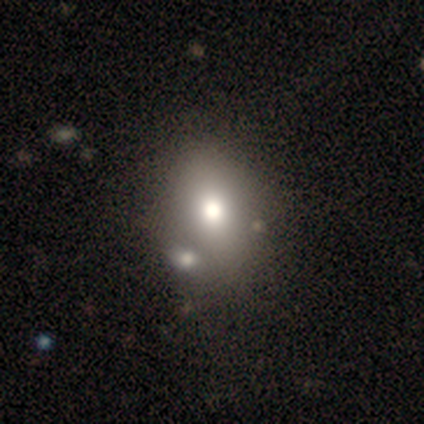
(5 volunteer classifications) smooth_or_featured: smooth (p=0.60) [alt: featured or disk p=0.40]
how_rounded: in between (p=1.00)
merging: none (p=0.60) [alt: merger p=0.40]